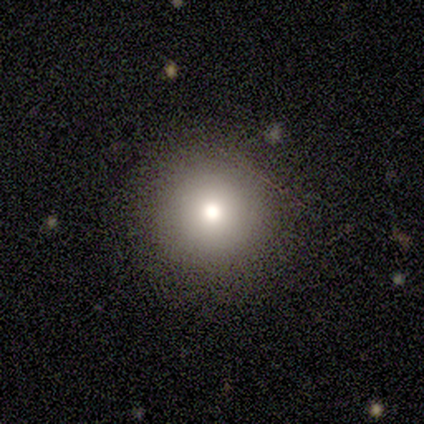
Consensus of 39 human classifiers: This is likely a smooth galaxy (72%). How rounded: clearly round (100%). Merging: clearly none (90%).